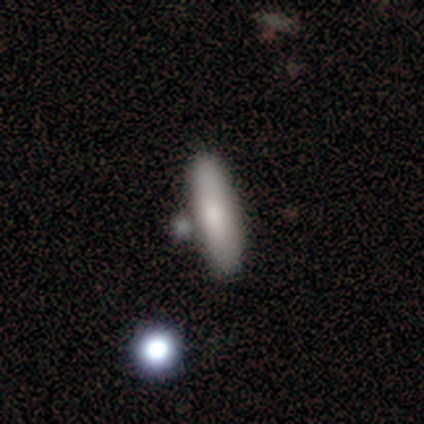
Smooth or featured? smooth (85%)
How rounded? cigar-shaped (56%)
Merging? none (36%)